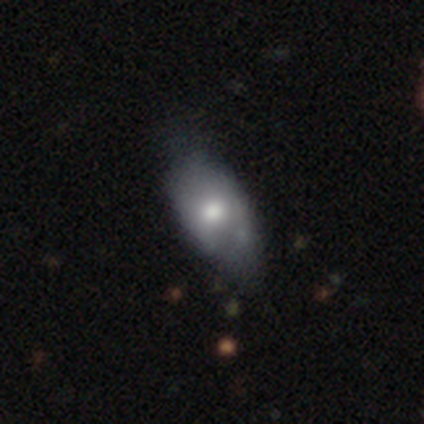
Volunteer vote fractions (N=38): smooth_or_featured: smooth (p=0.71) [alt: featured or disk p=0.18]
how_rounded: in between (p=0.96) [alt: round p=0.04]
merging: none (p=0.29) [alt: minor disturbance p=0.24]